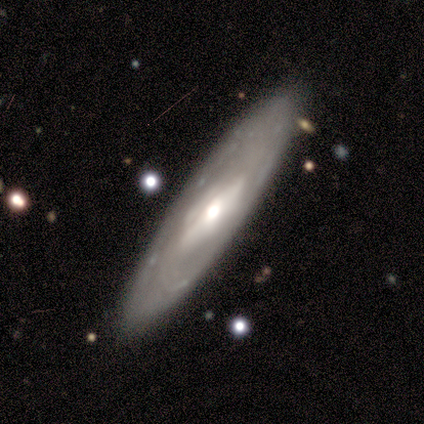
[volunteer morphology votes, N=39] Q: Smooth or featured?
A: featured or disk (77%); runner-up: smooth (23%)
Q: Edge-on disk?
A: no (57%); runner-up: yes (43%)
Q: Bar?
A: strong (47%); runner-up: weak (29%)
Q: Spiral arms?
A: no (65%); runner-up: yes (35%)
Q: Bulge size?
A: moderate (71%); runner-up: large (18%)
Q: Merging?
A: none (85%); runner-up: minor disturbance (13%)